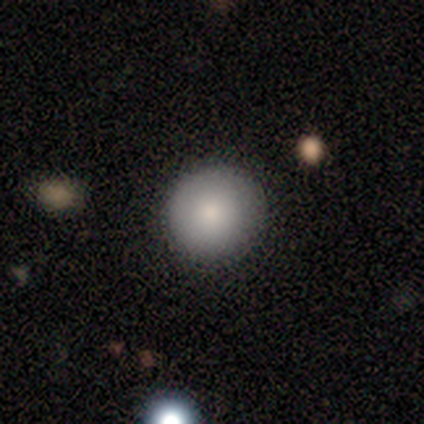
This is clearly a smooth galaxy (80%). How rounded: clearly round (100%). Merging: clearly none (100%).